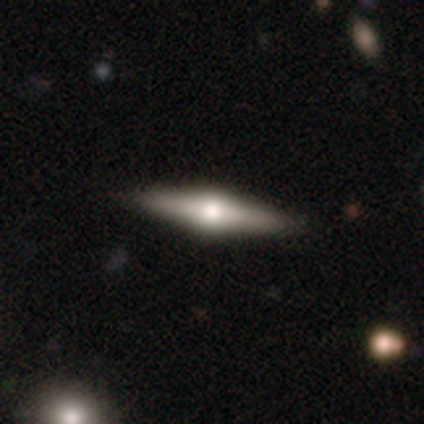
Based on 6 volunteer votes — This appears to be a featured or disk galaxy (83%) viewed edge-on (100%) with a rounded central bulge (100%). Merging: none (100%).